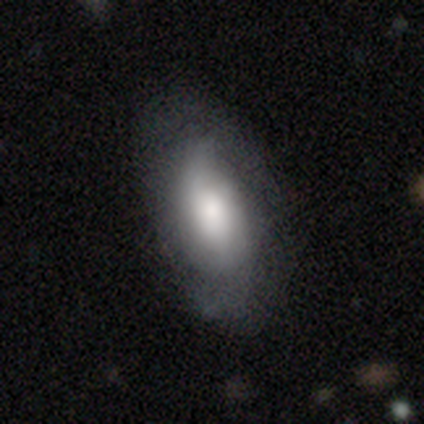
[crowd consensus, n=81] Smooth or featured: smooth — 57% (featured or disk — 38%)
How rounded: in between — 91% (cigar-shaped — 9%)
Merging: none — 61% (minor disturbance — 27%)